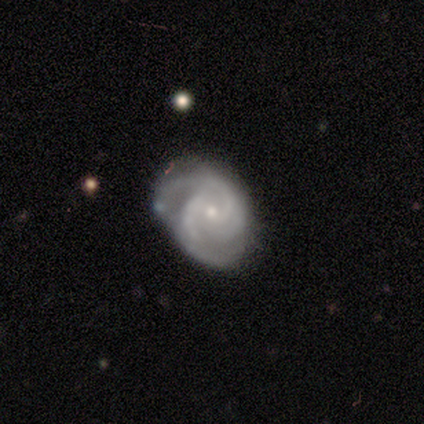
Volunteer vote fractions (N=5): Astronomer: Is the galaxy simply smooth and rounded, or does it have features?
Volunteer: featured or disk — 100%.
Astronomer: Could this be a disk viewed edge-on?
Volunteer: no — 80%.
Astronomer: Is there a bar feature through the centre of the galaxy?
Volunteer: weak — 50%, tied with no at 50%.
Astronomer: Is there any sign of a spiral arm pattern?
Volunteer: yes — 100%.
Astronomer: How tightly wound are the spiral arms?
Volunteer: tight — 75%.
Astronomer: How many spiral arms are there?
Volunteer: can't tell — 50%.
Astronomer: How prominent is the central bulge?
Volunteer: small — 100%.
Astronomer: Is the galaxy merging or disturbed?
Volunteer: none — 100%.